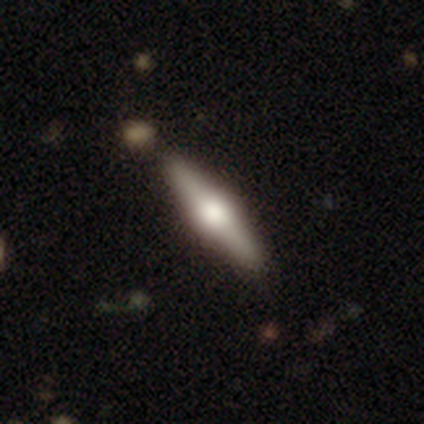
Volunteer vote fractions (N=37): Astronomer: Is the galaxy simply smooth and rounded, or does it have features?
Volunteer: featured or disk — 68%.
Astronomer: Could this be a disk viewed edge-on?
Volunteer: yes — 96%.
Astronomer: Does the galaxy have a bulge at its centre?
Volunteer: rounded — 92%.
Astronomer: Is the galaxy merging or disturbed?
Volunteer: none — 82%.